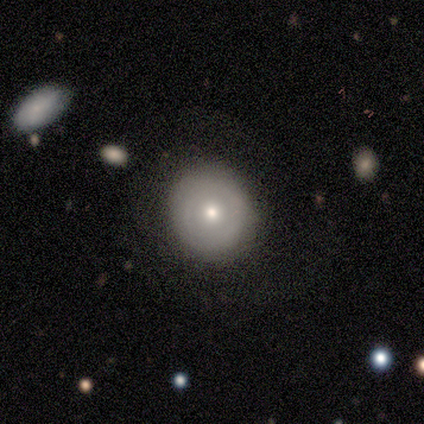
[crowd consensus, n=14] Morphology: type=featured or disk (50%); edge-on=no (100%); bar=no (100%); spiral arms=no (100%); bulge=small (71%); merging=none (77%).